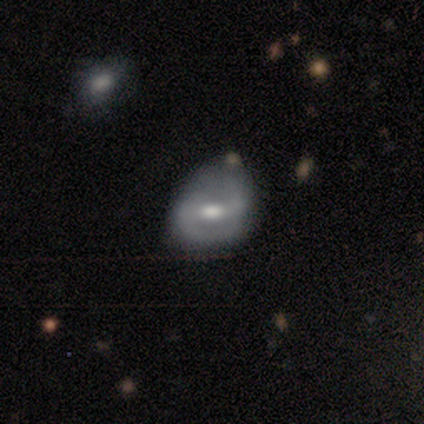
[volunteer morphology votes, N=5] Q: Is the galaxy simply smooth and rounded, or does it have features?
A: featured or disk — 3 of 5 (60%).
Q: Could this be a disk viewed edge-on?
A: no — 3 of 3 (100%).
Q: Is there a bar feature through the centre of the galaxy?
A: strong — 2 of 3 (67%).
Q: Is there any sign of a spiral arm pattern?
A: yes — 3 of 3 (100%).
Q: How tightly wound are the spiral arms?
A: tight — 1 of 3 (33%, tied with medium and loose).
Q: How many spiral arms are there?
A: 2 — 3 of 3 (100%).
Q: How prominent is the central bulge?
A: moderate — 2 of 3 (67%).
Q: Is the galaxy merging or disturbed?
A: minor disturbance — 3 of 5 (60%).